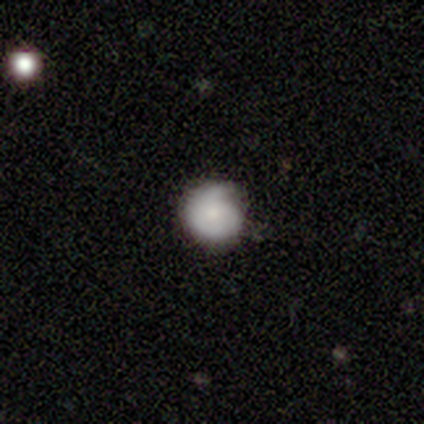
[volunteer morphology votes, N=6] Volunteers were most divided on "smooth or featured" (2-way tie): smooth: 50%, featured or disk: 50%, star or artifact: 0%; "merging" (2-way tie): none: 50%, minor disturbance: 50%, major disturbance: 0%, merger: 0%. More confident: how rounded — round (100%).